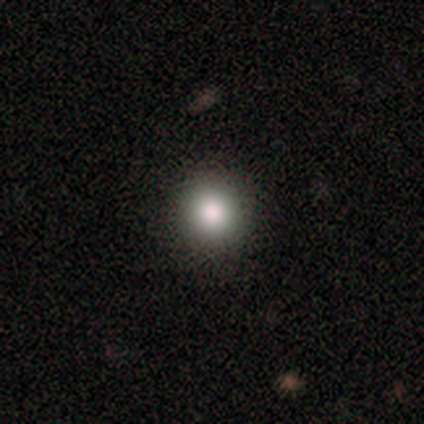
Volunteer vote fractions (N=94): smooth_or_featured: smooth (p=0.76) [alt: star or artifact p=0.18]
how_rounded: round (p=0.93) [alt: in between p=0.07]
merging: none (p=0.94) [alt: minor disturbance p=0.04]